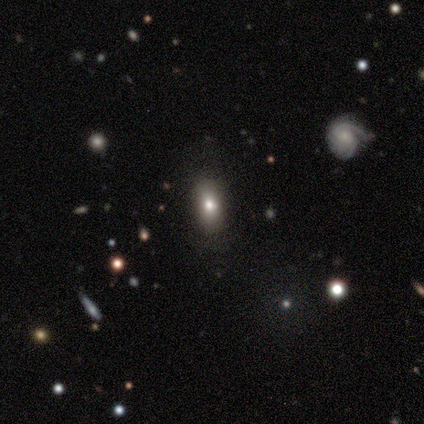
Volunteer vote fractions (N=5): Smooth or featured? 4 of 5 (80%) said smooth. How rounded? 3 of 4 (75%) said in between. Merging? 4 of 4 (100%) said none.